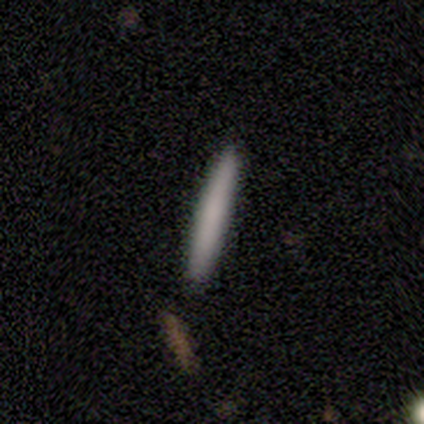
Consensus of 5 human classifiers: A smooth galaxy with no disk features (80%) that is cigar-shaped (100%).

Vote fractions:
- Smooth or featured? smooth: 80% / featured or disk: 20% / star or artifact: 0%
- How rounded? cigar-shaped: 100% / round: 0% / in between: 0%
- Merging? none: 100% / minor disturbance: 0% / major disturbance: 0% / merger: 0%